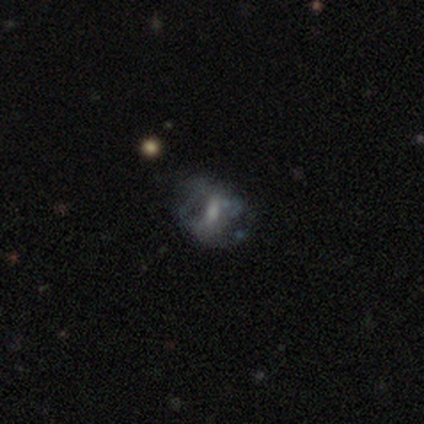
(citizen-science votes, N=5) A featured or disk galaxy (60%) with a weak bar (100%), no spiral arms (67%) and a moderate central bulge (33%, tied with small and none). Merging: none (50%, tied with minor disturbance).